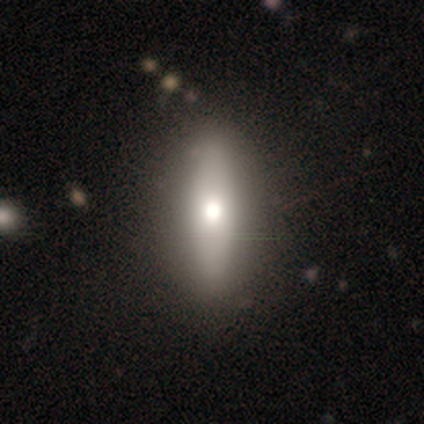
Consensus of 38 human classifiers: Q: Smooth or featured?
A: smooth (66%); runner-up: featured or disk (32%)
Q: How rounded?
A: cigar-shaped (60%); runner-up: in between (40%)
Q: Merging?
A: none (49%); runner-up: minor disturbance (5%)